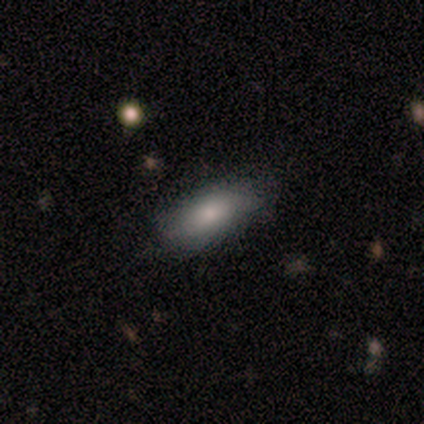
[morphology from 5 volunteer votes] type=smooth (80%); roundness=in between (100%); merging=none (100%).